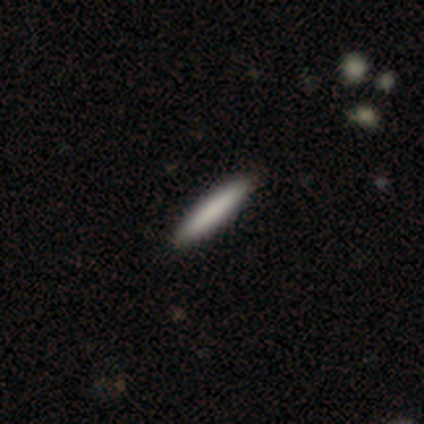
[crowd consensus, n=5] Morphology: type=smooth (80%); roundness=cigar-shaped (100%); merging=none (100%).